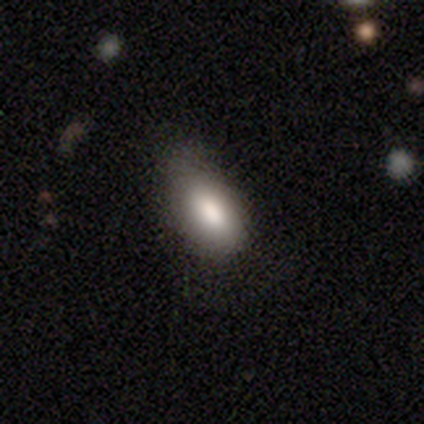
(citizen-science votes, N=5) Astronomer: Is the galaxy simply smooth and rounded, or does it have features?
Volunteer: smooth — 100%.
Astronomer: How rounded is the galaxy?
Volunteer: in between — 80%.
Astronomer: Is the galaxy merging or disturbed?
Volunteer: minor disturbance — 60% (runner-up: none, 40%).